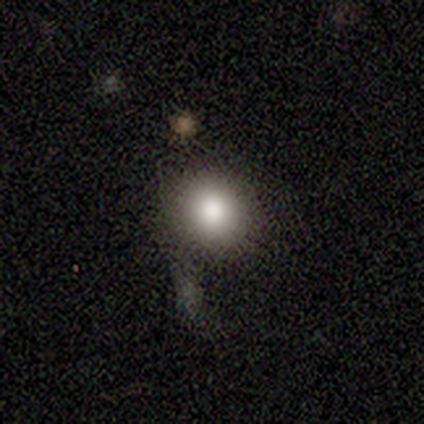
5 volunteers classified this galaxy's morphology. Smooth or featured? smooth (100%)
How rounded? round (100%)
Merging? none (80%)